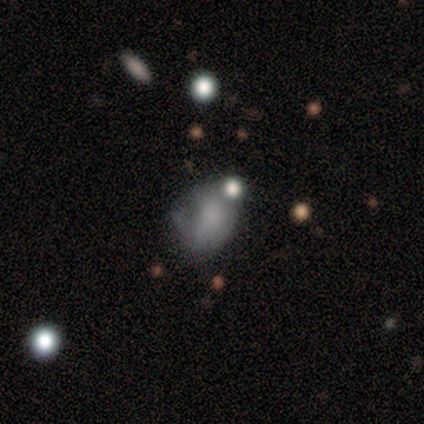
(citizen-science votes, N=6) Smooth or featured? smooth (50%, tied with featured or disk)
How rounded? in between (67%)
Merging? major disturbance (50%)